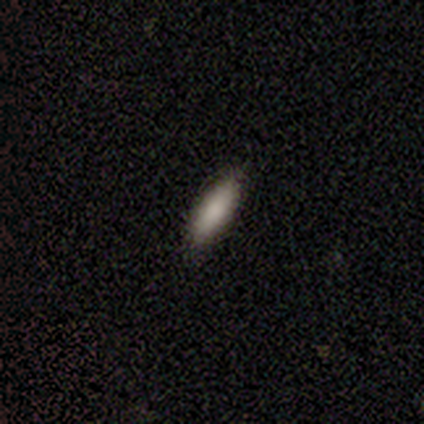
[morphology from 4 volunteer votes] Overall: smooth (75%). How rounded: cigar-shaped (67%; in between 33%). Merging: none (75%).